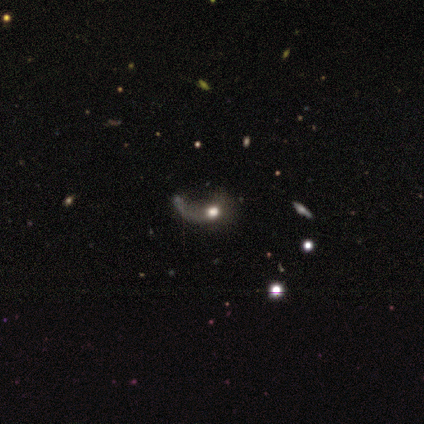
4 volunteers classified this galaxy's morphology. Overall: featured or disk (50%; smooth 25%). Edge-on disk: no (100%). Bar: no (100%). Spiral arms: yes (50%, tied with no). Spiral arm count: 1 (100%). Spiral winding: loose (100%). Bulge size: moderate (100%). Merging: major disturbance (100%).